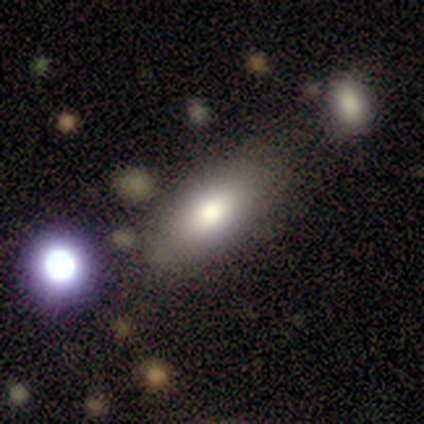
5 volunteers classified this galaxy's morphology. This appears to be a smooth galaxy with no disk features (80%) that is in between round and cigar-shaped (100%). Merging: none (75%).